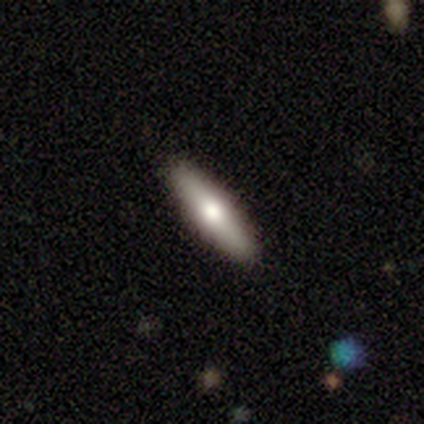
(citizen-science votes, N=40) smooth-or-featured: featured or disk: 50% | smooth: 45% | star or artifact: 5%
  disk-edge-on: yes: 90% | no: 10%
    edge-on-bulge: rounded: 89% | boxy: 6% | none: 6%
  merging: none: 89% | minor disturbance: 5% | major disturbance: 3% | merger: 3%